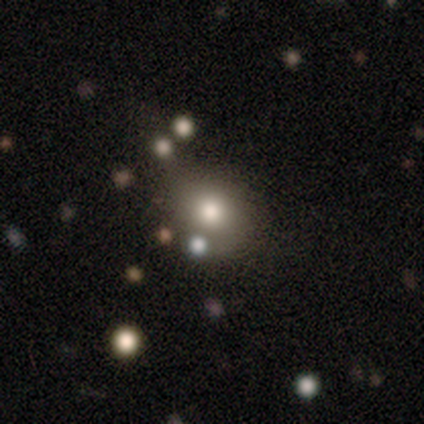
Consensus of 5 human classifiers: Morphology: type=smooth (60%); roundness=round (100%); merging=none (100%).